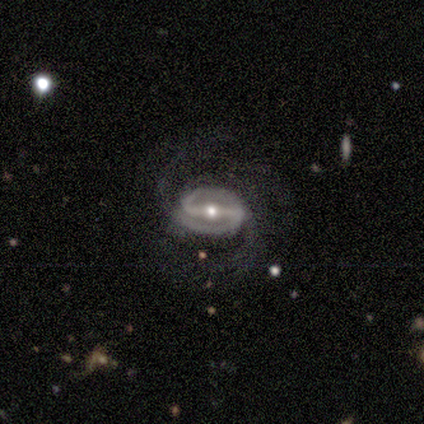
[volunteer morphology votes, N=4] Q: Smooth or featured?
A: featured or disk (100%)
Q: Edge-on disk?
A: no (100%)
Q: Bar?
A: strong (100%)
Q: Spiral arms?
A: yes (100%)
Q: Spiral winding?
A: medium (75%); runner-up: tight (25%)
Q: Spiral arm count?
A: 2 (75%); runner-up: 3 (25%)
Q: Bulge size?
A: moderate (75%); runner-up: small (25%)
Q: Merging?
A: none (75%); runner-up: major disturbance (25%)